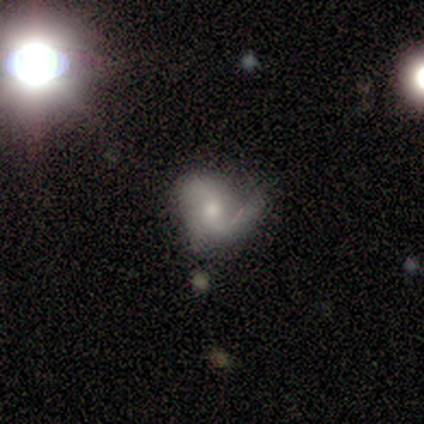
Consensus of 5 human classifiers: smooth-or-featured: featured or disk: 60% | smooth: 40% | star or artifact: 0%
  disk-edge-on: no: 100% | yes: 0%
    bar: no: 100% | strong: 0% | weak: 0%
    has-spiral-arms: yes: 100% | no: 0%
      spiral-winding: loose: 100% | tight: 0% | medium: 0%
      spiral-arm-count: 2: 100% | 1: 0% | 3: 0% | 4: 0% | more than 4: 0% | can't tell: 0%
    bulge-size: moderate: 67% | small: 33% | dominant: 0% | large: 0% | none: 0%
  merging: none: 40% (tied) | major disturbance: 40% (tied) | minor disturbance: 20% | merger: 0%